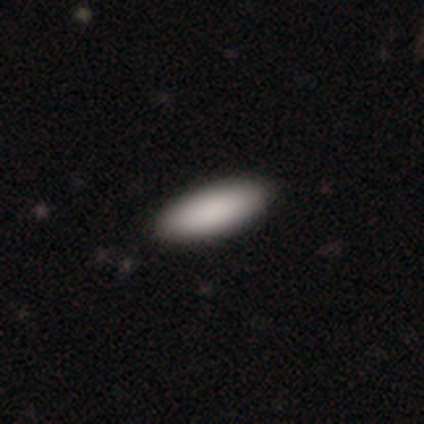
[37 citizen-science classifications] Smooth or featured: smooth — 89% (star or artifact — 8%)
How rounded: in between — 73% (cigar-shaped — 27%)
Merging: none — 76%